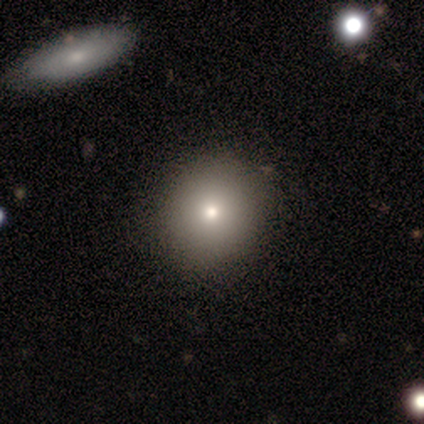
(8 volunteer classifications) Morphology: type=smooth (75%); roundness=round (67%); merging=none (75%).